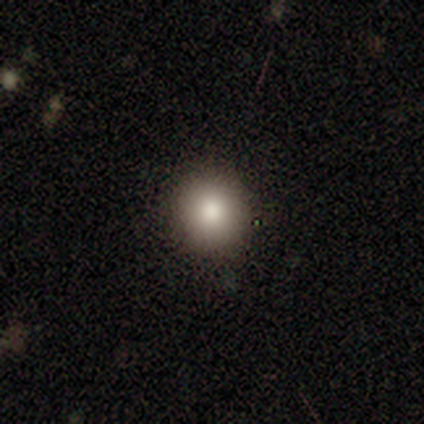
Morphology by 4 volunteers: A smooth galaxy with no disk features (75%) that is round (67%).

Vote fractions:
- Smooth or featured? smooth: 75% / star or artifact: 25% / featured or disk: 0%
- How rounded? round: 67% / in between: 33% / cigar-shaped: 0%
- Merging? none: 100% / minor disturbance: 0% / major disturbance: 0% / merger: 0%